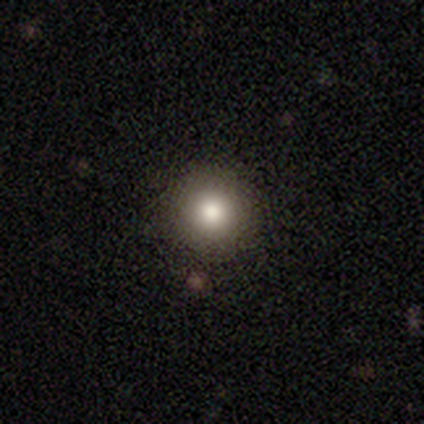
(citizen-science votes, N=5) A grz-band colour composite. It shows a smooth galaxy with no disk features (80%) that is round (100%). Merging: none (100%).